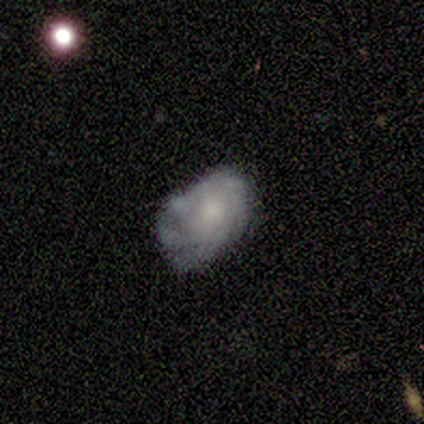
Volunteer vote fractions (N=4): Smooth or featured? 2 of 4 (50%, tied with featured or disk) said smooth. How rounded? 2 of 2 (100%) said in between. Merging? 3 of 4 (75%) said none.